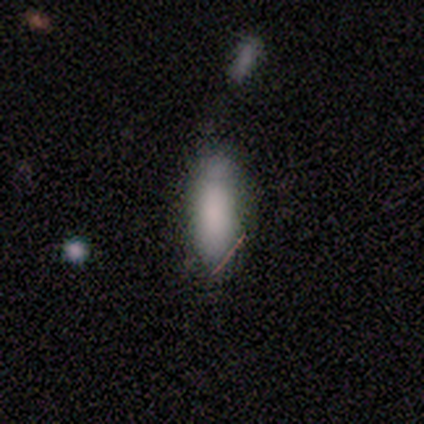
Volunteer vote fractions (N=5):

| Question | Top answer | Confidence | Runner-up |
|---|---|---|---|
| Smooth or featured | smooth | 80% | featured or disk (20%) |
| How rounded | in between | 100% | — |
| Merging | none | 60% | minor disturbance (40%) |